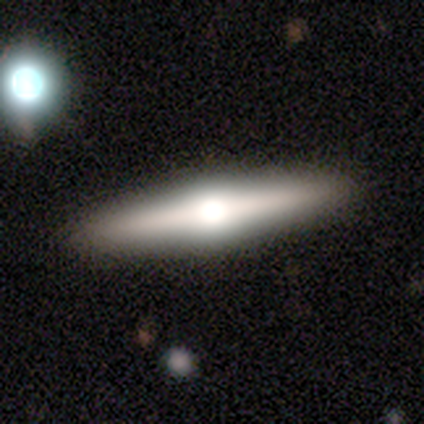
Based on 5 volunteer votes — Smooth or featured: featured or disk — 80% (smooth — 20%)
Edge-on disk: yes — 100%
Edge-on bulge: rounded — 100%
Merging: none — 100%